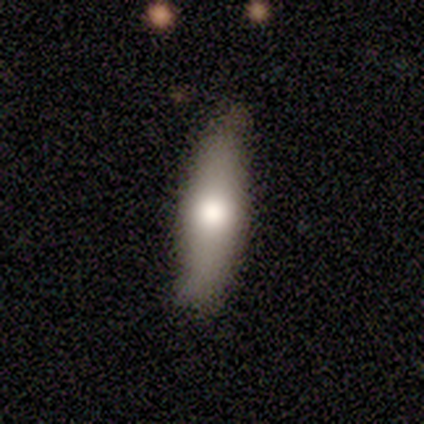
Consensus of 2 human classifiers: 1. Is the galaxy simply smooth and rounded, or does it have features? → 100% smooth, 0% featured or disk, 0% star or artifact.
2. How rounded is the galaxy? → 50% in between (tied), 50% cigar-shaped (tied), 0% round.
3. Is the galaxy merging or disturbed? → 100% none, 0% minor disturbance, 0% major disturbance, 0% merger.